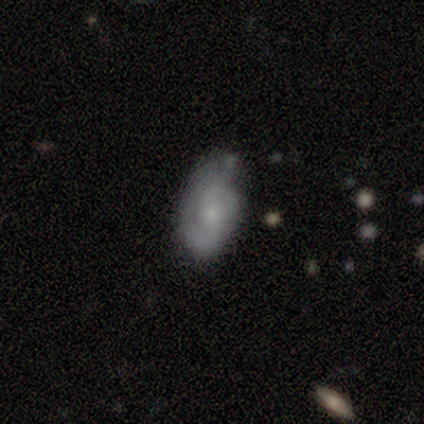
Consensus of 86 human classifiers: This is possibly a featured or disk galaxy (52%). It is clearly not viewed edge-on (93%). Bar: likely no (76%). Spiral arm pattern: likely yes (76%). Spiral arm count: likely 2 (62%). Spiral winding: marginally tight (38%, tied with medium). Central bulge: likely small (64%). Merging: possibly none (51%).